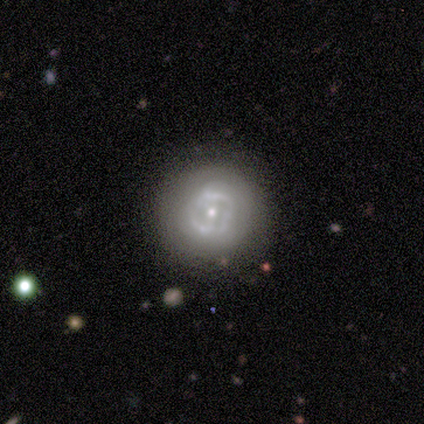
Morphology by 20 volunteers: smooth-or-featured: featured or disk: 60% | smooth: 35% | star or artifact: 5%
  disk-edge-on: no: 100% | yes: 0%
    bar: no: 75% | weak: 25% | strong: 0%
    has-spiral-arms: no: 75% | yes: 25%
    bulge-size: small: 83% | large: 8% | moderate: 8% | dominant: 0% | none: 0%
  merging: none: 68% | minor disturbance: 26% | major disturbance: 5% | merger: 0%